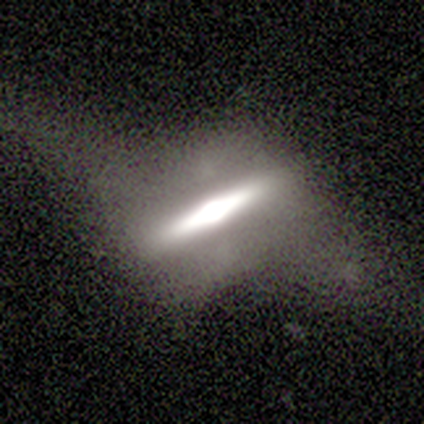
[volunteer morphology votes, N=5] type=featured or disk (60%); edge-on=yes (100%); edge-on bulge=rounded (67%); merging=none (40%, tied with minor disturbance).